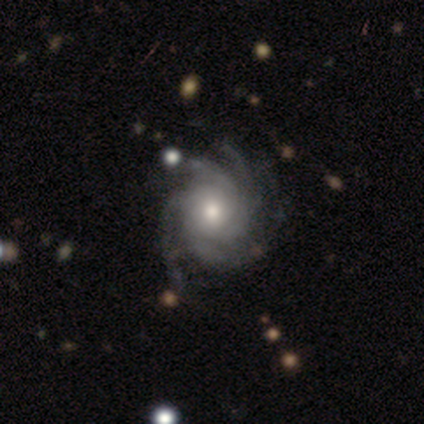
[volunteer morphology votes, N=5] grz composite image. It shows a featured or disk galaxy (100%) with no bar (100%), 4 (40%, tied with more than 4) tight (80%) spiral arms (100%) and a moderate central bulge (80%). Merging: none (100%).